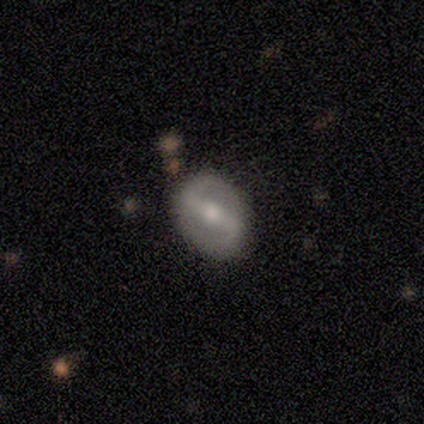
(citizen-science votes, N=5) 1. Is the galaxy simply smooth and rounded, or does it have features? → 100% featured or disk, 0% smooth, 0% star or artifact.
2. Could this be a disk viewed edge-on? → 100% no, 0% yes.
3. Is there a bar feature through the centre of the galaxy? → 60% strong, 20% weak, 20% no.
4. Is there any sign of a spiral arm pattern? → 60% yes, 40% no.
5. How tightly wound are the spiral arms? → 67% loose, 33% medium, 0% tight.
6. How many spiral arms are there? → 100% 2, 0% 1, 0% 3, 0% 4, 0% more than 4, 0% can't tell.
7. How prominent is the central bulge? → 80% moderate, 20% none, 0% dominant, 0% large, 0% small.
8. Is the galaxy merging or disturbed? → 100% none, 0% minor disturbance, 0% major disturbance, 0% merger.